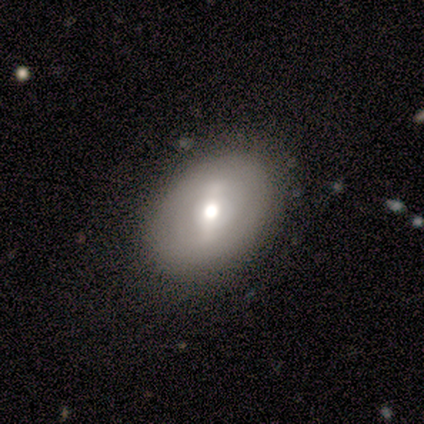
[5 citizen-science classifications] Smooth or featured? 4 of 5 (80%) said smooth. How rounded? 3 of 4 (75%) said in between. Merging? 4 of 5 (80%) said none.